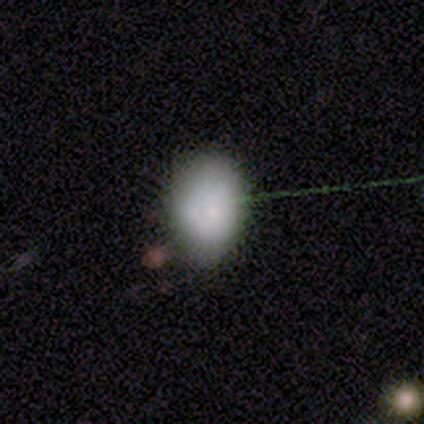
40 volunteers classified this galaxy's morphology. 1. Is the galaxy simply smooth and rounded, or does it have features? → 72% smooth, 18% featured or disk, 10% star or artifact.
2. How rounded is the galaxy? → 48% round, 45% in between, 7% cigar-shaped.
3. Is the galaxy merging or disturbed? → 50% none, 39% minor disturbance, 8% major disturbance, 3% merger.